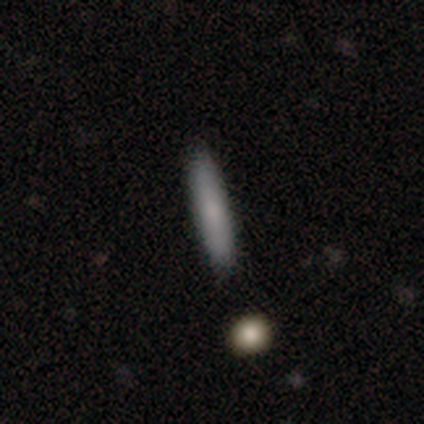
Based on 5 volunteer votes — smooth_or_featured: smooth (p=0.60) [alt: featured or disk p=0.20]
how_rounded: cigar-shaped (p=1.00)
merging: none (p=1.00)